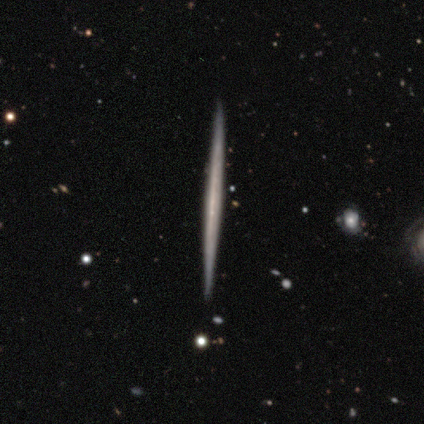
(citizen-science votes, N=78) A featured or disk galaxy (74%) viewed edge-on (100%) with no central bulge (93%). Merging: none (93%).